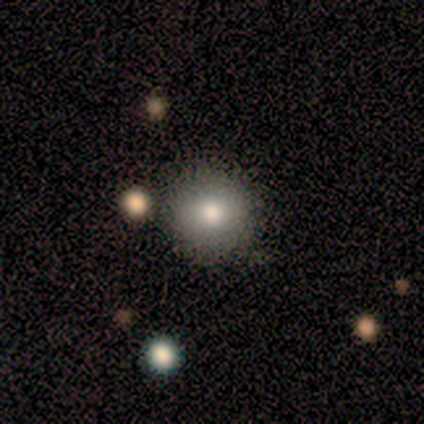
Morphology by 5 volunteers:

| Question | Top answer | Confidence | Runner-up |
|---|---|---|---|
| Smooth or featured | smooth | 100% | — |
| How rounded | round | 100% | — |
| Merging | none | 80% | minor disturbance (20%) |